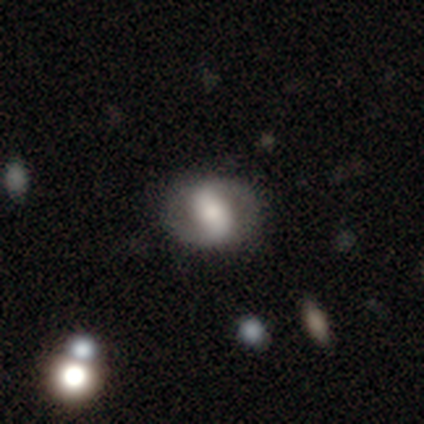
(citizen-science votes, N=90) Q: Smooth or featured?
A: featured or disk (59%); runner-up: smooth (36%)
Q: Edge-on disk?
A: no (98%); runner-up: yes (2%)
Q: Bar?
A: strong (40%); runner-up: weak (38%)
Q: Spiral arms?
A: yes (71%); runner-up: no (29%)
Q: Spiral winding?
A: tight (35%); tied with: medium (35%)
Q: Spiral arm count?
A: 2 (95%); runner-up: 3 (3%)
Q: Bulge size?
A: moderate (50%); runner-up: small (19%)
Q: Merging?
A: none (76%); runner-up: minor disturbance (15%)